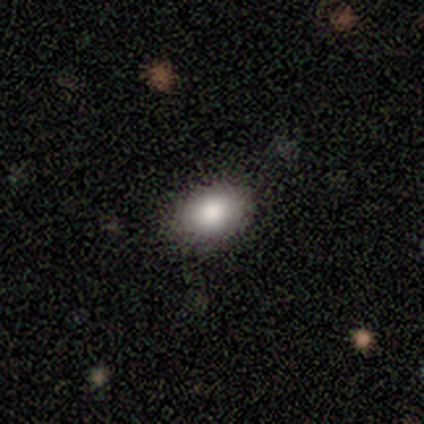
Smooth or featured? 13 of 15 (87%) said smooth. How rounded? 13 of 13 (100%) said in between. Merging? 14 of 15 (93%) said none.